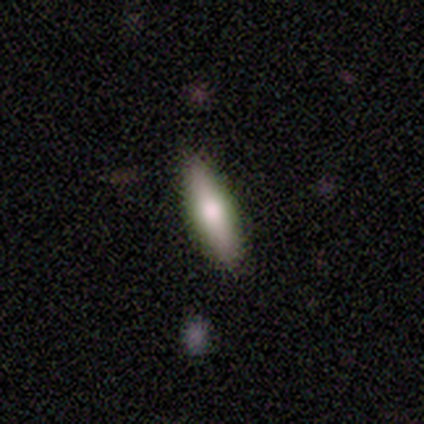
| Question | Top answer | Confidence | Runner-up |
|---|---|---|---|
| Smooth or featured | smooth | 60% | featured or disk (40%) |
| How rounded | cigar-shaped | 67% | in between (33%) |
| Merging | none | 100% | — |